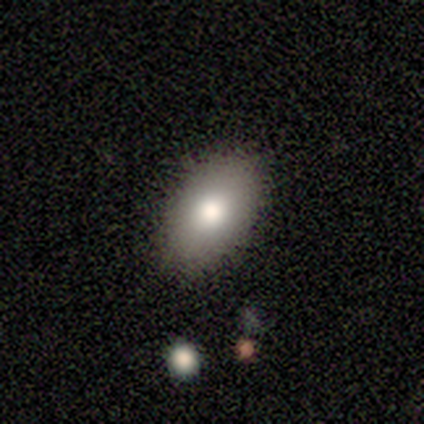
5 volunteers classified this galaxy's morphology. smooth-or-featured: smooth: 60% | featured or disk: 20% | star or artifact: 20%
  how-rounded: in between: 100% | round: 0% | cigar-shaped: 0%
  merging: none: 100% | minor disturbance: 0% | major disturbance: 0% | merger: 0%